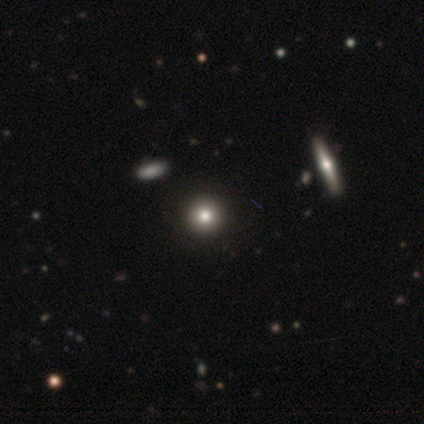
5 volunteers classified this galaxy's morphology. smooth_or_featured: smooth (p=0.80) [alt: star or artifact p=0.20]
how_rounded: round (p=0.75) [alt: in between p=0.25]
merging: none (p=0.50) [alt: minor disturbance p=0.25]